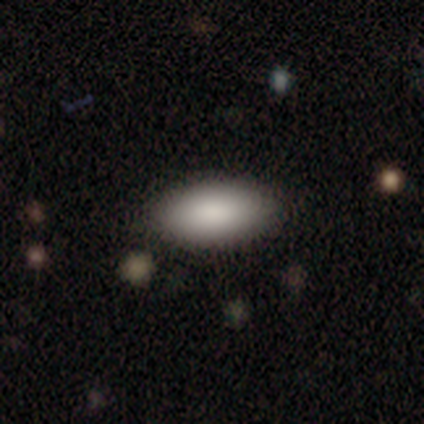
Smooth or featured? smooth (83%)
How rounded? in between (100%)
Merging? none (100%)